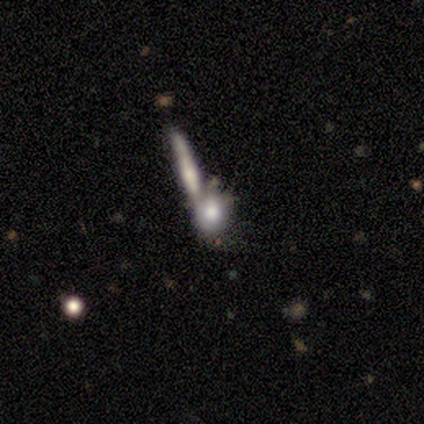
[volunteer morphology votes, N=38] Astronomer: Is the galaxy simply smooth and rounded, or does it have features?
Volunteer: featured or disk — 45% (runner-up: smooth, 37%).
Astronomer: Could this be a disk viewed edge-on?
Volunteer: no — 82%.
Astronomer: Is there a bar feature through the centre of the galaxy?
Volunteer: no — 100%.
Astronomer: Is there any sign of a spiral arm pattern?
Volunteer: no — 79%.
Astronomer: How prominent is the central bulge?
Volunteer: large — 43% (runner-up: none, 29%).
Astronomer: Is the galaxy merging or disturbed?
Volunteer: merger — 71%.